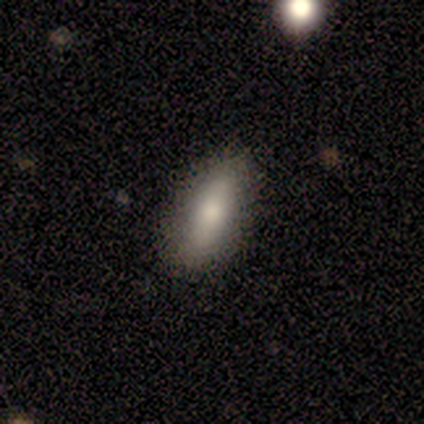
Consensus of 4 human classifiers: Volunteers were most divided on "smooth or featured": smooth: 75%, featured or disk: 25%, star or artifact: 0%. More confident: how rounded — in between (100%); merging — none (100%).